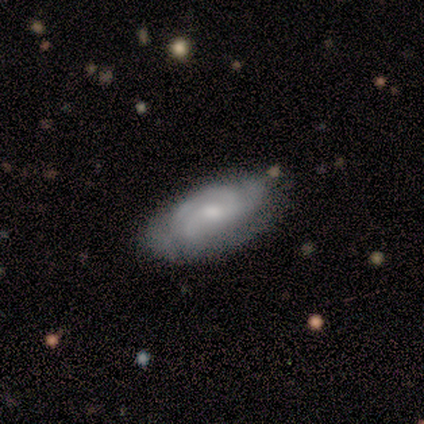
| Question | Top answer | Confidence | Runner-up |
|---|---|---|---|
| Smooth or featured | featured or disk | 62% | smooth (36%) |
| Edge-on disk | no | 96% | yes (4%) |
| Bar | no | 61% | weak (35%) |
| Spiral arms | yes | 91% | no (9%) |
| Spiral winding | tight | 57% | medium (24%) |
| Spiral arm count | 3 | 33% | tied: can't tell (33%) |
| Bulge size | moderate | 65% | small (30%) |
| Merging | none | 53% | minor disturbance (34%) |